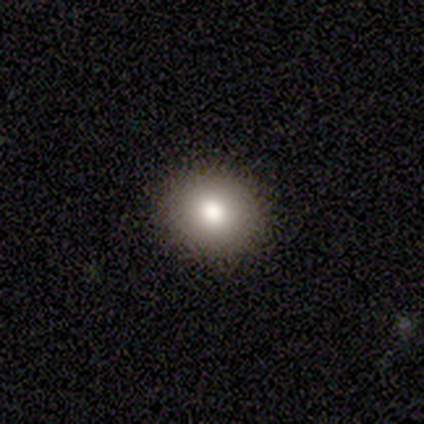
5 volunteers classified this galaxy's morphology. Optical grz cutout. It shows a smooth galaxy with no disk features (80%) that is round (100%). Merging: none (100%).